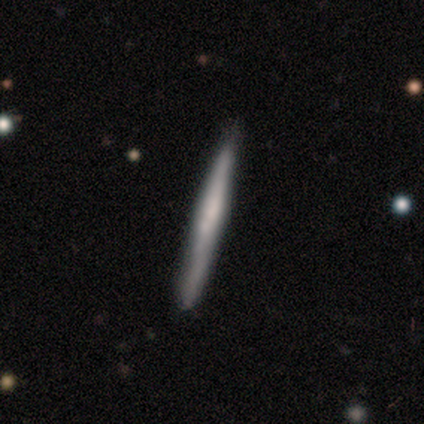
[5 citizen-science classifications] smooth_or_featured: smooth (p=0.80) [alt: featured or disk p=0.20]
how_rounded: cigar-shaped (p=1.00)
merging: none (p=0.80) [alt: minor disturbance p=0.20]